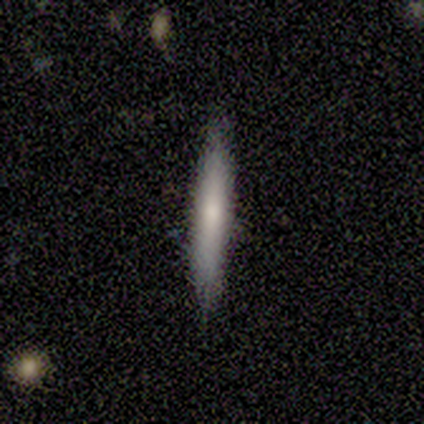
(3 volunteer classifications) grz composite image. It shows a smooth galaxy with no disk features (67%) that is cigar-shaped (100%). Merging: none (100%).